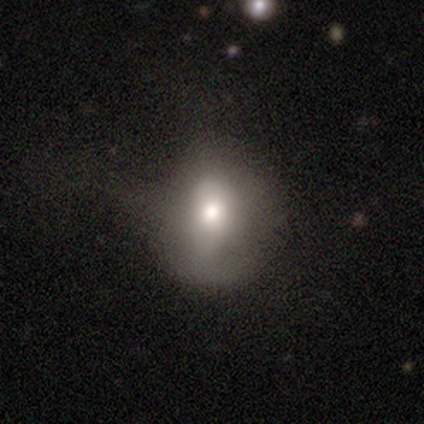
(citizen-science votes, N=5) Smooth or featured: smooth — 40% (tied with star or artifact — 40%)
How rounded: round — 50% (tied with in between — 50%)
Merging: none — 67% (minor disturbance — 33%)